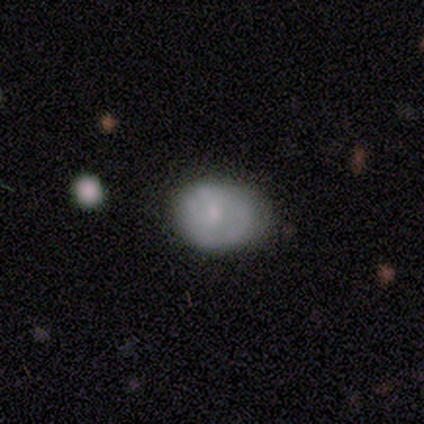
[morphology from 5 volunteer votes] Smooth or featured? smooth (40%, tied with featured or disk)
How rounded? in between (100%)
Merging? none (50%, tied with minor disturbance)